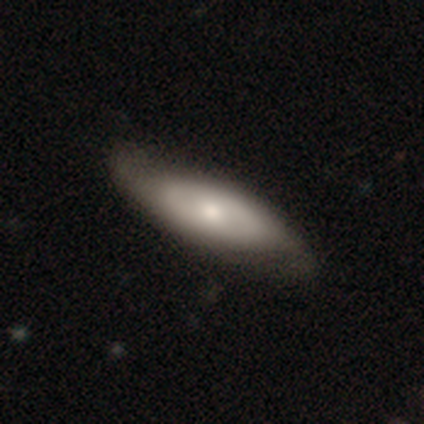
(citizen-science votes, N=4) smooth-or-featured: smooth: 50% (tied) | featured or disk: 50% (tied) | star or artifact: 0%
  how-rounded: in between: 100% | round: 0% | cigar-shaped: 0%
  merging: none: 75% | major disturbance: 25% | minor disturbance: 0% | merger: 0%